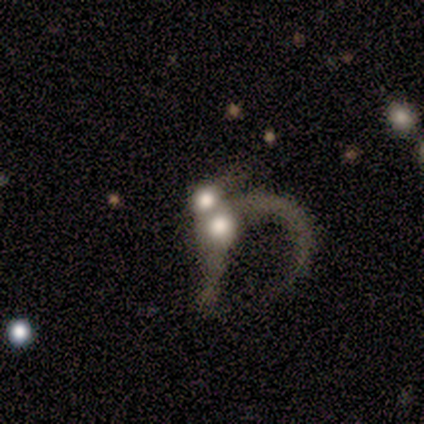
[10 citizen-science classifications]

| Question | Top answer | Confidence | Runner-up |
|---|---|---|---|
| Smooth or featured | featured or disk | 70% | smooth (20%) |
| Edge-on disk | no | 100% | — |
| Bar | no | 100% | — |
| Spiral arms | no | 71% | yes (29%) |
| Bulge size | moderate | 43% | large (29%) |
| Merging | merger | 67% | major disturbance (33%) |